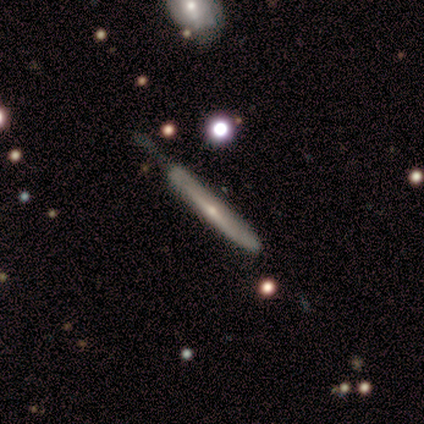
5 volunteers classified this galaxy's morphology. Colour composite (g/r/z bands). It shows a featured or disk galaxy (80%) viewed edge-on (100%) with a rounded central bulge (100%). Merging: none (60%).